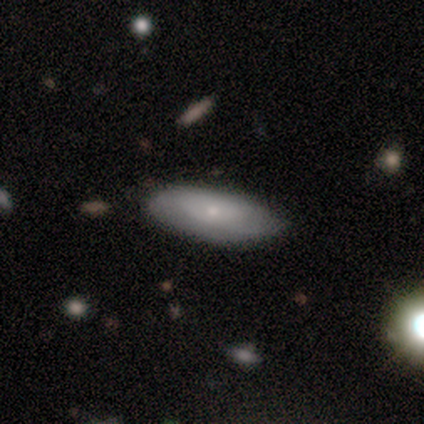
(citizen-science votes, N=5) This is clearly a featured or disk galaxy (80%). It is possibly viewed edge-on (50%, tied with no). Edge-on bulge: possibly none (50%, tied with rounded). Merging: clearly none (100%).